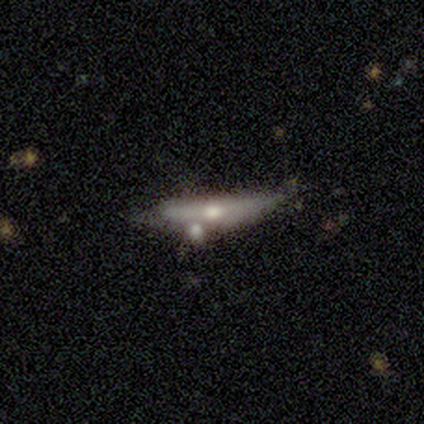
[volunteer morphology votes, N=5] This is clearly a featured or disk galaxy (80%). It is likely viewed edge-on (75%). Edge-on bulge: clearly rounded (100%). Merging: marginally merger (40%).